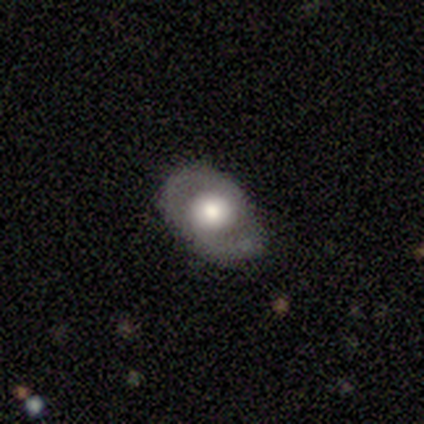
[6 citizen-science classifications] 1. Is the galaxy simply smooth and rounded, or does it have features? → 67% smooth, 33% featured or disk, 0% star or artifact.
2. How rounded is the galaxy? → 100% in between, 0% round, 0% cigar-shaped.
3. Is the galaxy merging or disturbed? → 50% none (tied), 50% minor disturbance (tied), 0% major disturbance, 0% merger.